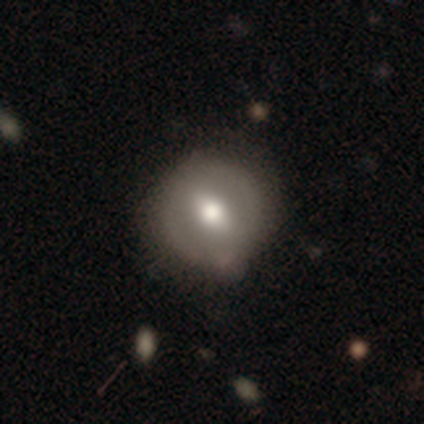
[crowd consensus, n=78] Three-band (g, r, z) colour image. It shows a smooth galaxy with no disk features (53%) that is round (93%). Merging: none (37%).